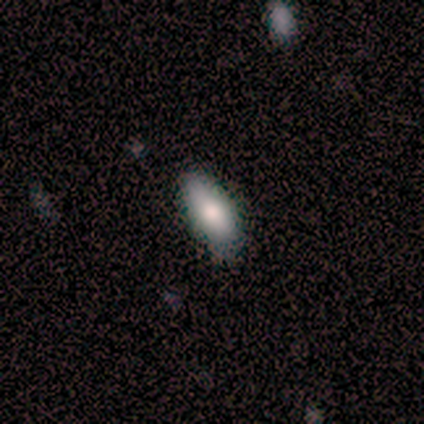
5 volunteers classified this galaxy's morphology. Volunteers were most divided on "how rounded": in between: 75%, cigar-shaped: 25%, round: 0%. More confident: smooth or featured — smooth (80%); merging — none (80%).